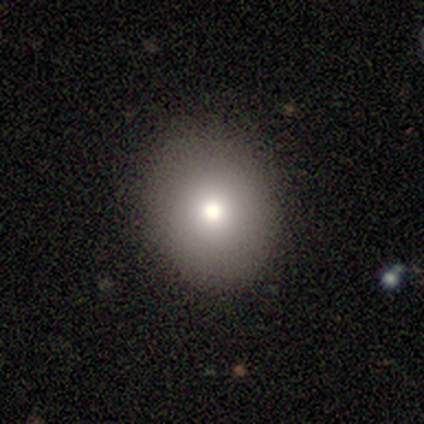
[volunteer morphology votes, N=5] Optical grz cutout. It shows a smooth galaxy with no disk features (80%) that is round (50%, tied with in between). Merging: none (100%).